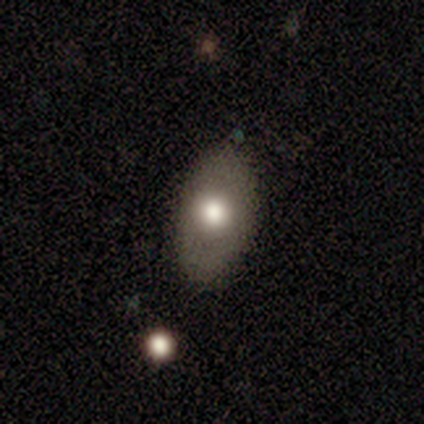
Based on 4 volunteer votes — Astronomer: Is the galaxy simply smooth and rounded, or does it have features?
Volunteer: featured or disk — 75%.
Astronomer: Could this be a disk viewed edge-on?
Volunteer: no — 100%.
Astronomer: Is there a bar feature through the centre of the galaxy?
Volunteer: no — 67%.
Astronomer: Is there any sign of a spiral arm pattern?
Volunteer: no — 67%.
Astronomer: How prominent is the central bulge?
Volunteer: large — 100%.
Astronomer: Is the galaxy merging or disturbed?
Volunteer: none — 75%.